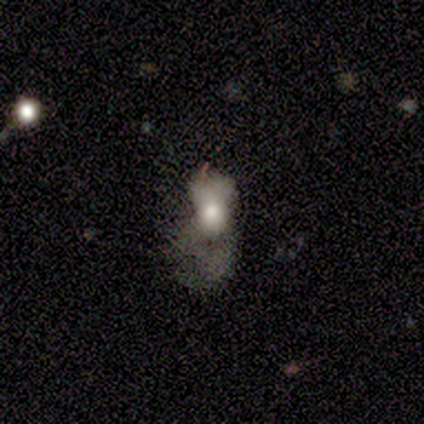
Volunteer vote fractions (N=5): smooth-or-featured: smooth: 100% | featured or disk: 0% | star or artifact: 0%
  how-rounded: in between: 80% | round: 20% | cigar-shaped: 0%
  merging: major disturbance: 60% | minor disturbance: 20% | merger: 20% | none: 0%